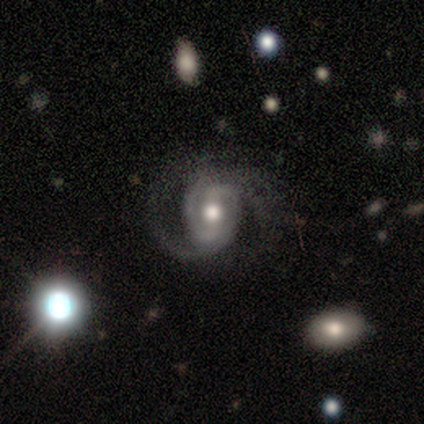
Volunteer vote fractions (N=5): Smooth or featured? featured or disk (80%)
Edge-on disk? no (75%)
Bar? no (67%)
Spiral arms? yes (100%)
Spiral winding? tight (67%)
Spiral arm count? 2 (100%)
Bulge size? moderate (100%)
Merging? none (50%)